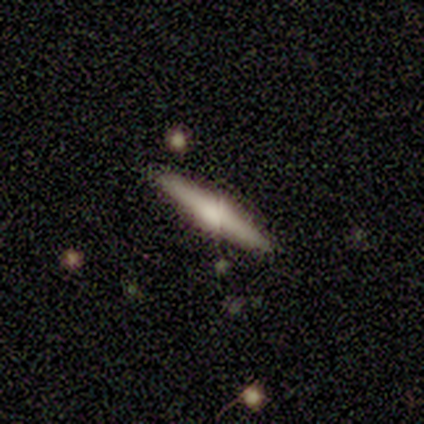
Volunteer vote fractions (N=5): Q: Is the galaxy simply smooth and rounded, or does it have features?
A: smooth — 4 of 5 (80%).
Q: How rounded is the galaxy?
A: cigar-shaped — 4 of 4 (100%).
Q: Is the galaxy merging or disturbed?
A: none — 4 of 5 (80%).